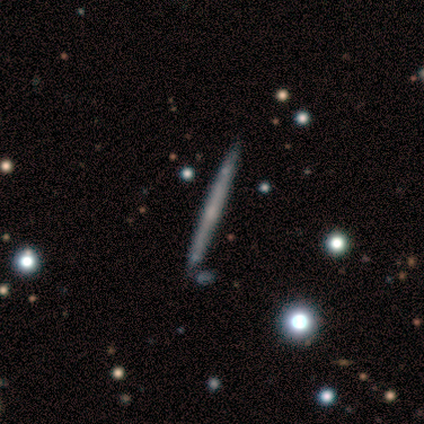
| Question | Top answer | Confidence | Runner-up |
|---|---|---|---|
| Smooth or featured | featured or disk | 60% | smooth (30%) |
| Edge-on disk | yes | 100% | — |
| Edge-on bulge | none | 83% | rounded (17%) |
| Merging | none | 100% | — |